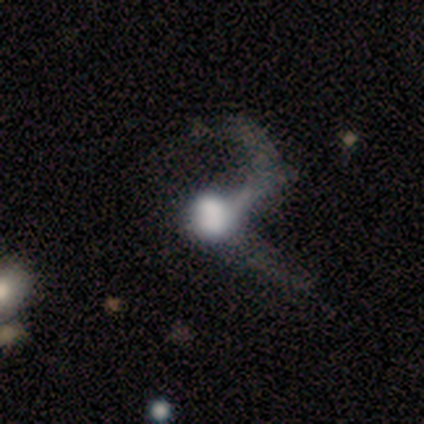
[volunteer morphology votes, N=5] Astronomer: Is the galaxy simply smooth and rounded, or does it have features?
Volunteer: smooth — 40%, tied with featured or disk at 40%.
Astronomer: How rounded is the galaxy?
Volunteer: round — 100%.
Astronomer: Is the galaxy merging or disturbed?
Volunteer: major disturbance — 50%.